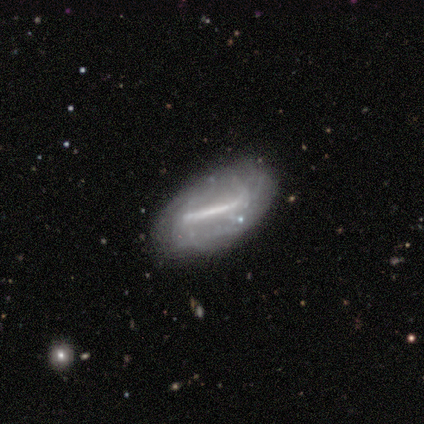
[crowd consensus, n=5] Morphology: type=featured or disk (100%); edge-on=no (100%); bar=strong (100%); spiral arms=yes (100%); winding=medium (80%); arm count=can't tell (100%); bulge=small (60%); merging=none (60%).